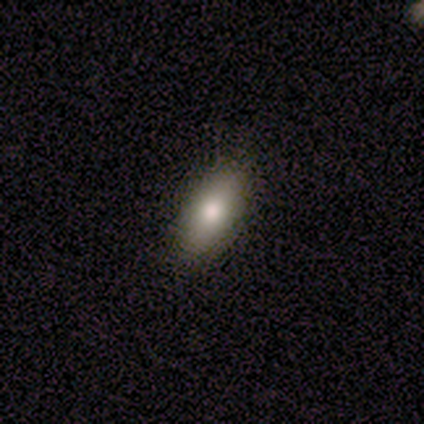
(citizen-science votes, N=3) This is likely a smooth galaxy (67%). How rounded: clearly in between (100%). Merging: clearly none (100%).